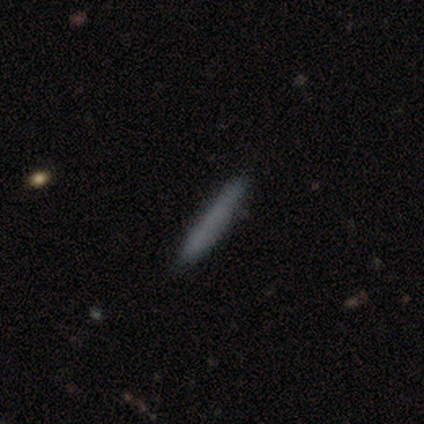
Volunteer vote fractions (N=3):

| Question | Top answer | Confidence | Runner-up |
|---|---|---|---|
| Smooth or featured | smooth | 100% | — |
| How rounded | cigar-shaped | 100% | — |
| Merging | none | 100% | — |